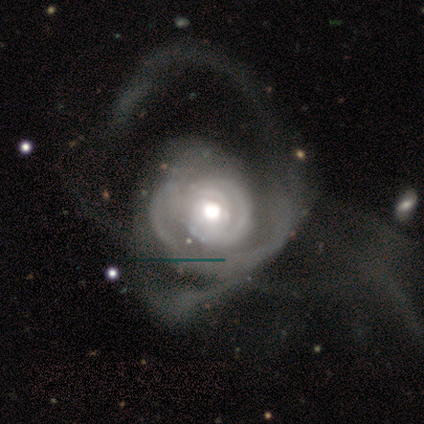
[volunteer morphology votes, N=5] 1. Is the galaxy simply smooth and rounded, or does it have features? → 100% featured or disk, 0% smooth, 0% star or artifact.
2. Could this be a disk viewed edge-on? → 100% no, 0% yes.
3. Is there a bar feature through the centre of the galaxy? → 100% no, 0% strong, 0% weak.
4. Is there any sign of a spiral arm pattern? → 100% yes, 0% no.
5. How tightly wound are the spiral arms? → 80% medium, 20% tight, 0% loose.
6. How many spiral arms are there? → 60% can't tell, 20% 2, 20% more than 4, 0% 1, 0% 3, 0% 4.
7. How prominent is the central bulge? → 60% large, 40% moderate, 0% dominant, 0% small, 0% none.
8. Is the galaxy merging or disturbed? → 60% major disturbance, 20% none, 20% merger, 0% minor disturbance.